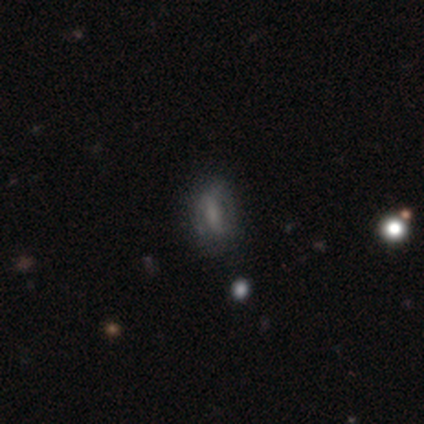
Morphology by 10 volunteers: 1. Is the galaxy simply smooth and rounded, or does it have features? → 50% smooth (tied), 50% featured or disk (tied), 0% star or artifact.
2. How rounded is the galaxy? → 80% in between, 20% cigar-shaped, 0% round.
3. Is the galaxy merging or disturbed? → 80% none, 10% minor disturbance, 10% merger, 0% major disturbance.